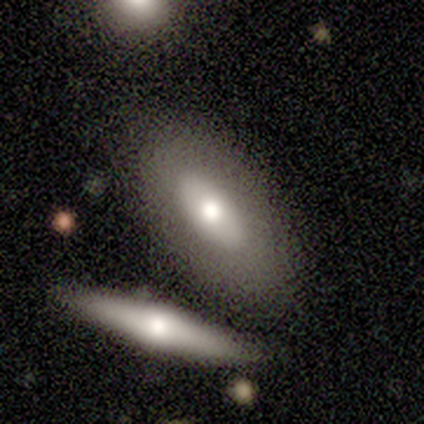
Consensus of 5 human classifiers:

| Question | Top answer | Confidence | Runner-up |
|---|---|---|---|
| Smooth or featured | smooth | 40% | tied: featured or disk (40%) |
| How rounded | in between | 100% | — |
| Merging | minor disturbance | 50% | none (25%) |